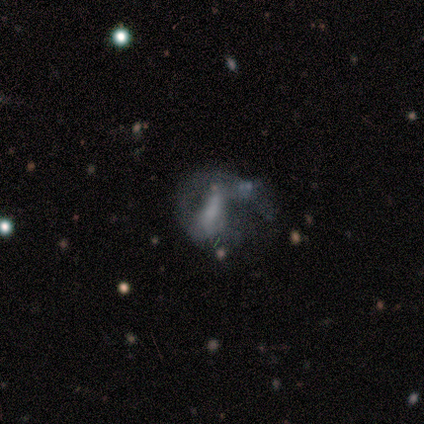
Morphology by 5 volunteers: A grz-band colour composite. It shows a featured or disk galaxy (100%) with no bar (60%), no spiral arms (60%) and a moderate central bulge (40%). Merging: major disturbance (60%).